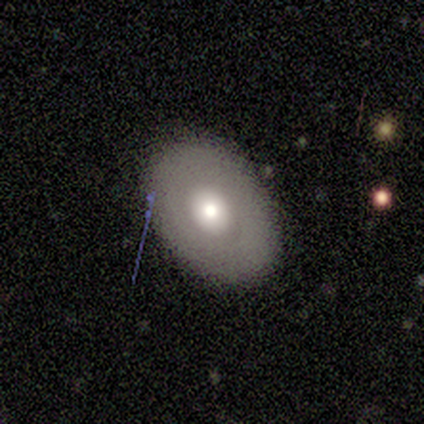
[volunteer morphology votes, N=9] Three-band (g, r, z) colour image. It shows a featured or disk galaxy (56%) with no bar (100%), no spiral arms (100%) and a moderate central bulge (60%). Merging: none (100%).